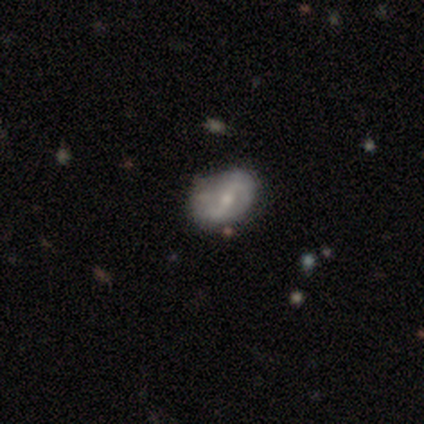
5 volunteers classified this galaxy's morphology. smooth-or-featured: featured or disk: 80% | smooth: 20% | star or artifact: 0%
  disk-edge-on: no: 100% | yes: 0%
    bar: strong: 50% (tied) | no: 50% (tied) | weak: 0%
    has-spiral-arms: yes: 50% (tied) | no: 50% (tied)
      spiral-winding: loose: 100% | tight: 0% | medium: 0%
      spiral-arm-count: 2: 100% | 1: 0% | 3: 0% | 4: 0% | more than 4: 0% | can't tell: 0%
    bulge-size: moderate: 75% | small: 25% | dominant: 0% | large: 0% | none: 0%
  merging: none: 60% | minor disturbance: 40% | major disturbance: 0% | merger: 0%